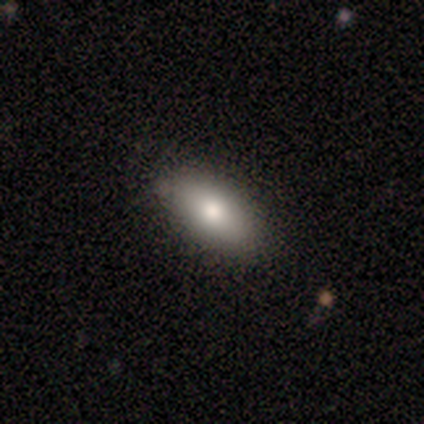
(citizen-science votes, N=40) Overall: smooth (90%). How rounded: in between (92%). Merging: none (90%).